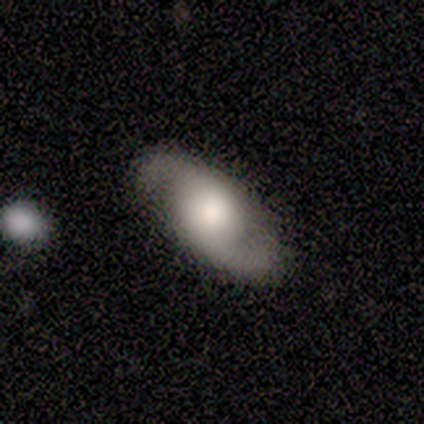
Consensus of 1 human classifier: smooth_or_featured: smooth (p=1.00)
how_rounded: in between (p=1.00)
merging: major disturbance (p=1.00)